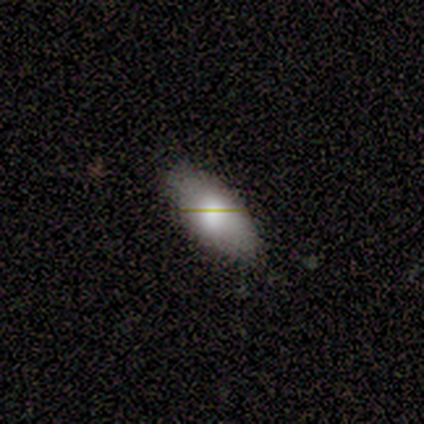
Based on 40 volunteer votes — Smooth or featured? smooth (85%)
How rounded? in between (94%)
Merging? none (76%)